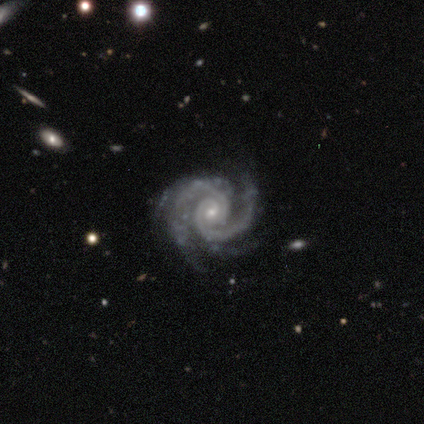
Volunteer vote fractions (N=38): Smooth or featured: featured or disk — 89% (smooth — 5%)
Edge-on disk: no — 97% (yes — 3%)
Bar: no — 79% (strong — 12%)
Spiral arms: yes — 100%
Spiral winding: tight — 67% (medium — 30%)
Spiral arm count: 2 — 73% (3 — 15%)
Bulge size: small — 91% (moderate — 9%)
Merging: none — 83% (minor disturbance — 11%)